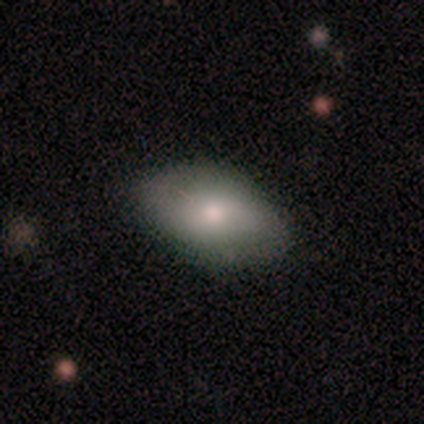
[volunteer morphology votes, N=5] Smooth or featured? smooth (80%)
How rounded? in between (100%)
Merging? none (75%)